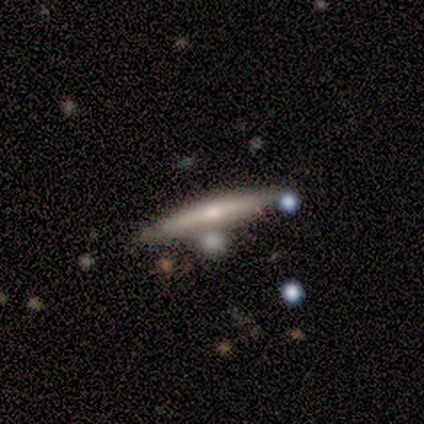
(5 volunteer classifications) This appears to be a smooth galaxy with no disk features (100%) that is cigar-shaped (80%). Merging: none (60%).